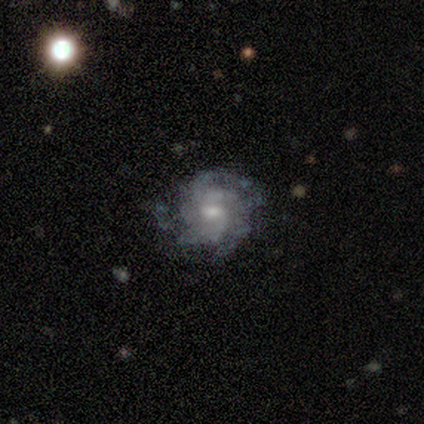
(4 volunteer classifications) Q: Smooth or featured?
A: featured or disk (75%); runner-up: smooth (25%)
Q: Edge-on disk?
A: no (100%)
Q: Bar?
A: weak (67%); runner-up: no (33%)
Q: Spiral arms?
A: yes (100%)
Q: Spiral winding?
A: medium (67%); runner-up: tight (33%)
Q: Spiral arm count?
A: 2 (33%); tied with: 4 (33%); can't tell (33%)
Q: Bulge size?
A: moderate (67%); runner-up: small (33%)
Q: Merging?
A: none (100%)